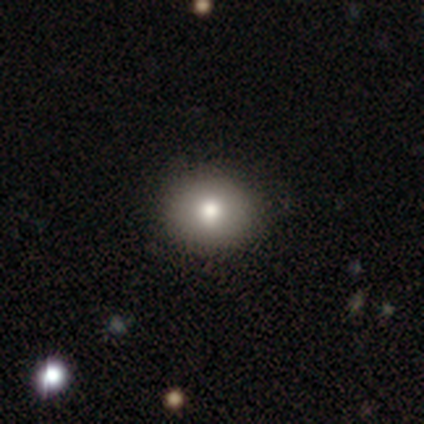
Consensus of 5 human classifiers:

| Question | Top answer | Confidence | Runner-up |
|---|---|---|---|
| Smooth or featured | smooth | 60% | featured or disk (20%) |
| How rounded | round | 100% | — |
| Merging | none | 100% | — |